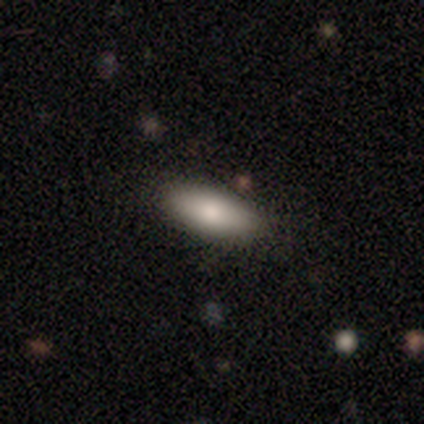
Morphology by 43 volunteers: Volunteers were most divided on "how rounded": in between: 74%, cigar-shaped: 26%, round: 0%. More confident: merging — none (97%); smooth or featured — smooth (79%).